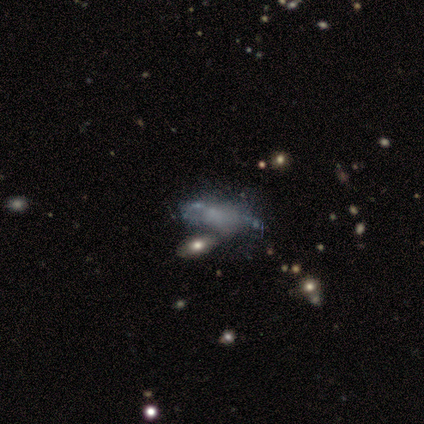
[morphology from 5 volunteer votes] This appears to be a smooth galaxy with no disk features (60%) that is cigar-shaped (67%). Merging: none (40%, tied with merger).